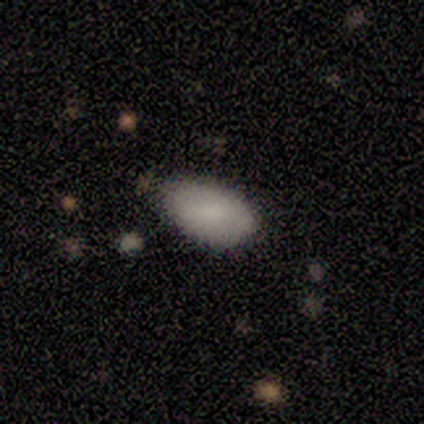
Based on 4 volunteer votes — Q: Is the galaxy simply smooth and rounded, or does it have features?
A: smooth — 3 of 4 (75%).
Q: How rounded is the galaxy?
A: in between — 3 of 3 (100%).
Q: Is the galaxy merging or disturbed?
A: minor disturbance — 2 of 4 (50%).